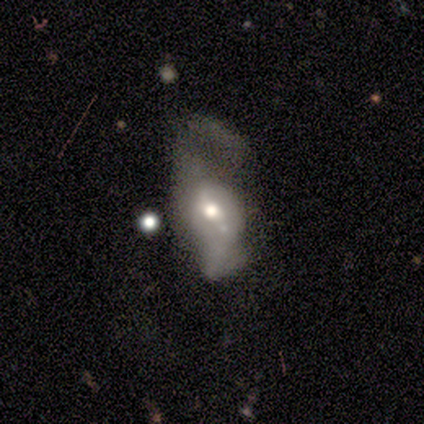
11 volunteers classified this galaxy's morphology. Q: Smooth or featured?
A: featured or disk (64%); runner-up: smooth (36%)
Q: Edge-on disk?
A: no (100%)
Q: Bar?
A: no (57%); runner-up: weak (43%)
Q: Spiral arms?
A: no (71%); runner-up: yes (29%)
Q: Bulge size?
A: moderate (71%); runner-up: large (14%)
Q: Merging?
A: major disturbance (55%); runner-up: minor disturbance (36%)